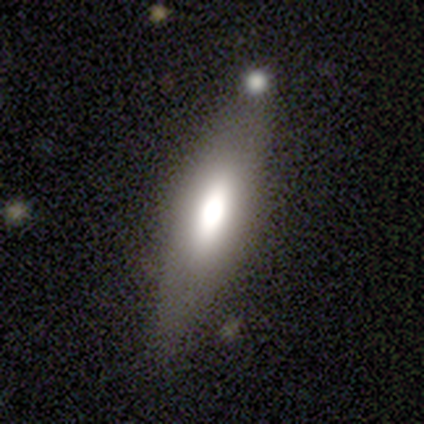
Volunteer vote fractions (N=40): Overall: smooth (70%). How rounded: in between (50%, tied with cigar-shaped). Merging: none (79%).